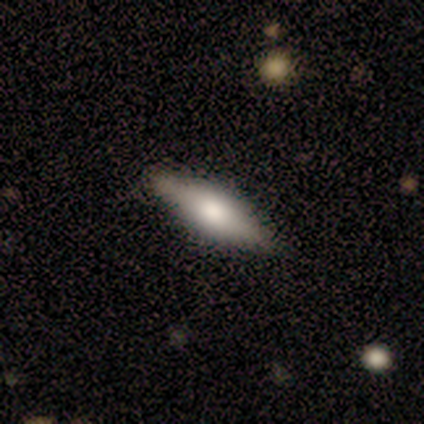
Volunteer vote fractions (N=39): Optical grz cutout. It shows a featured or disk galaxy (49%) viewed edge-on (89%) with a rounded central bulge (65%). Merging: none (89%).